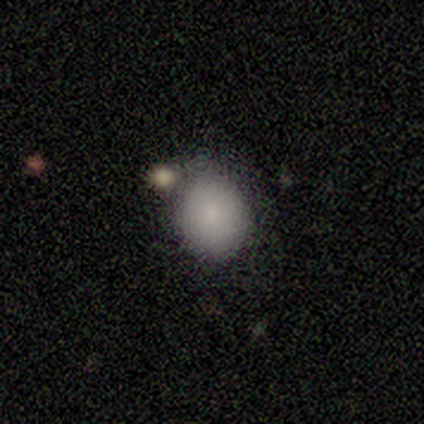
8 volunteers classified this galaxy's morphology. A smooth galaxy with no disk features (100%) that is round (75%). Merging: none (62%).